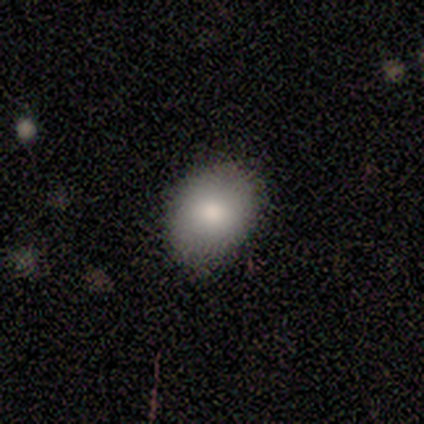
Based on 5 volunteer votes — A smooth galaxy with no disk features (80%) that is in between round and cigar-shaped (75%).

Vote fractions:
- Smooth or featured? smooth: 80% / featured or disk: 20% / star or artifact: 0%
- How rounded? in between: 75% / round: 25% / cigar-shaped: 0%
- Merging? none: 80% / minor disturbance: 20% / major disturbance: 0% / merger: 0%